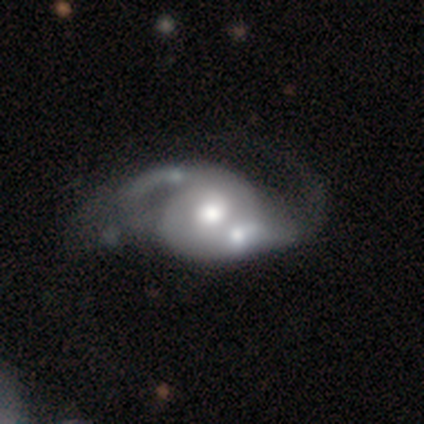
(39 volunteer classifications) A featured or disk galaxy (82%) with no bar (69%), 2 (92%) loose (38%) spiral arms (81%) and a moderate central bulge (53%). Merging: merger (31%).